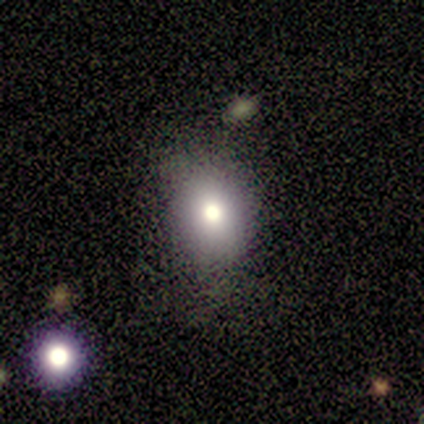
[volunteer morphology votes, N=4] A smooth galaxy with no disk features (75%) that is in between round and cigar-shaped (67%).

Vote fractions:
- Smooth or featured? smooth: 75% / featured or disk: 25% / star or artifact: 0%
- How rounded? in between: 67% / round: 33% / cigar-shaped: 0%
- Merging? none: 100% / minor disturbance: 0% / major disturbance: 0% / merger: 0%